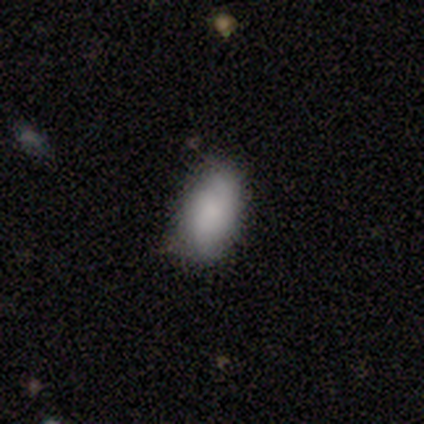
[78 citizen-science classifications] Smooth or featured? smooth (77%)
How rounded? in between (98%)
Merging? none (44%)